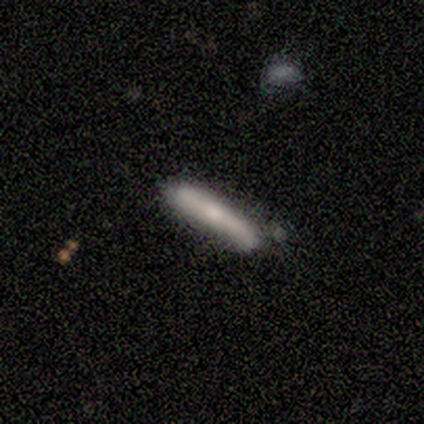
Smooth or featured? 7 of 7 (100%) said smooth. How rounded? 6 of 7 (86%) said cigar-shaped. Merging? 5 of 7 (71%) said none.